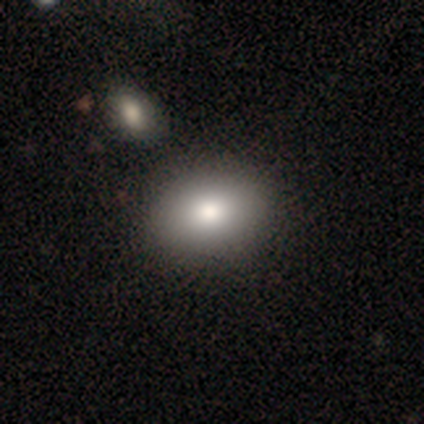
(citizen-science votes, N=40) Smooth or featured?
  - smooth: 82% *
  - featured or disk: 12%
  - star or artifact: 5%
How rounded?
  - in between: 58% *
  - round: 42%
  - cigar-shaped: 0%
Merging?
  - none: 55% *
  - merger: 8%
  - minor disturbance: 5%
  - major disturbance: 0%